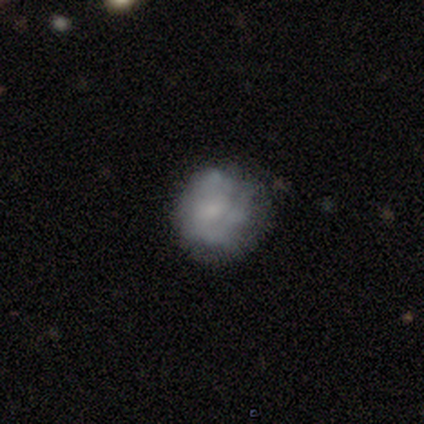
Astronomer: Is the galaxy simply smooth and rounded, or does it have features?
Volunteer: smooth — 60%.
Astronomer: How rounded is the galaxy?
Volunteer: round — 100%.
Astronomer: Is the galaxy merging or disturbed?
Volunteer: none — 50%, tied with minor disturbance at 50%.